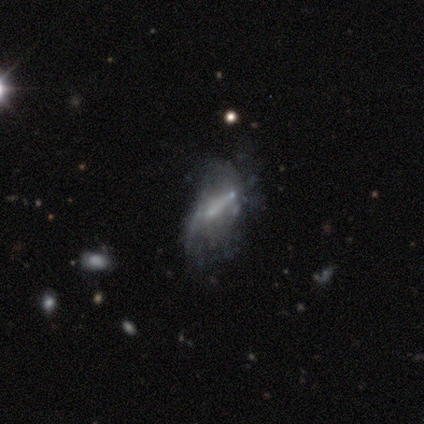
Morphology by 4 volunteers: Q: Smooth or featured?
A: smooth (50%); tied with: star or artifact (50%)
Q: How rounded?
A: in between (100%)
Q: Merging?
A: none (50%); tied with: major disturbance (50%)